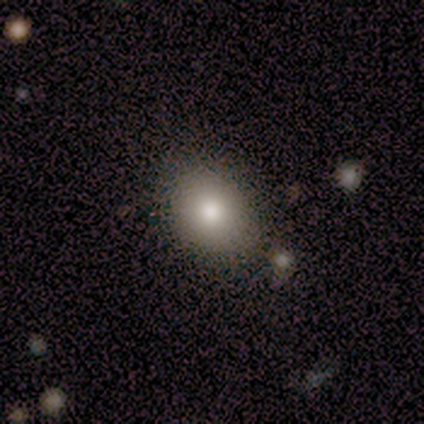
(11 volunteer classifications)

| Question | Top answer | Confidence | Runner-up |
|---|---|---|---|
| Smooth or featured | smooth | 73% | featured or disk (18%) |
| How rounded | round | 88% | in between (12%) |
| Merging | none | 80% | minor disturbance (10%) |